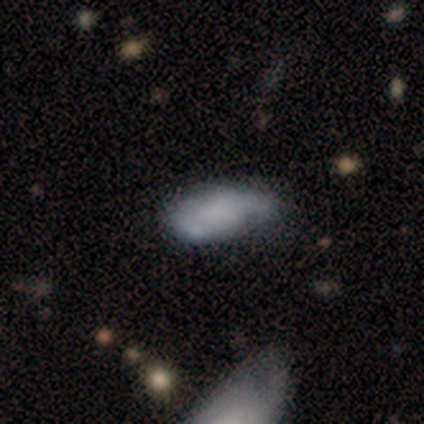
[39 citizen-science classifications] smooth_or_featured: smooth (p=0.64) [alt: featured or disk p=0.28]
how_rounded: in between (p=0.84) [alt: cigar-shaped p=0.12]
merging: none (p=0.44) [alt: minor disturbance p=0.25]